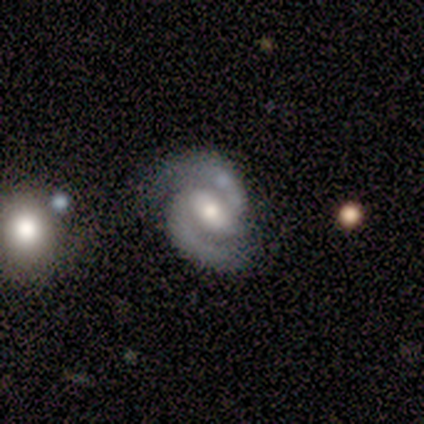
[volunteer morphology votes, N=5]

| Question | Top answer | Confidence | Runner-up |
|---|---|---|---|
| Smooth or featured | featured or disk | 80% | smooth (20%) |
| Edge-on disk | no | 100% | — |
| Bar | strong | 50% | weak (25%) |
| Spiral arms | yes | 100% | — |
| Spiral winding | tight | 50% | tied: medium (50%) |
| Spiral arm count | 2 | 100% | — |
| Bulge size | moderate | 50% | large (25%) |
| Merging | none | 100% | — |